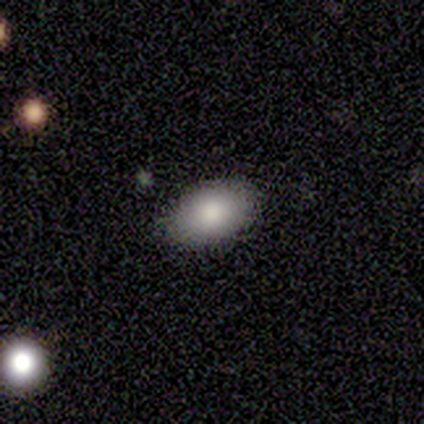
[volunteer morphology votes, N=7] smooth 100%, featured or disk 0%, star or artifact 0%. Down the decision tree: how rounded — in between (100%); merging — none (86%).